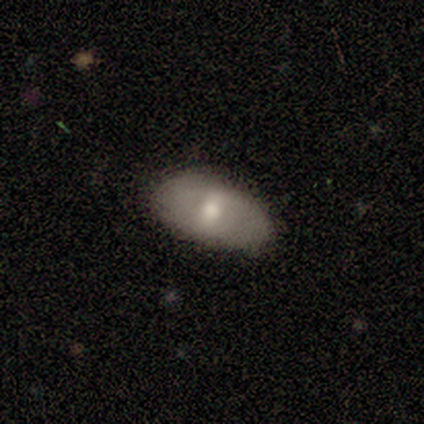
Overall: featured or disk (60%; smooth 20%). Edge-on disk: no (67%; yes 33%). Bar: strong (50%, tied with weak). Spiral arms: yes (50%, tied with no). Spiral arm count: can't tell (100%). Spiral winding: loose (100%). Bulge size: moderate (100%). Merging: none (75%).